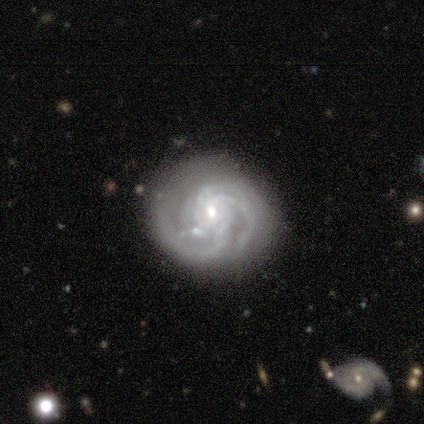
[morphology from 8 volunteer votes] featured or disk 100%, smooth 0%, star or artifact 0%. Down the decision tree: edge-on disk — no (100%); bar — no (75%); spiral arms — yes (88%); spiral arm count — 2 (57%); spiral winding — medium (57%); bulge size — small (62%); merging — none (88%).